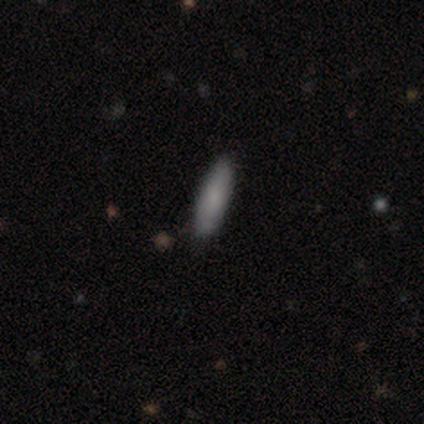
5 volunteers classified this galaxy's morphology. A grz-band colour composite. It shows a smooth galaxy with no disk features (80%) that is cigar-shaped (100%). Merging: none (80%).